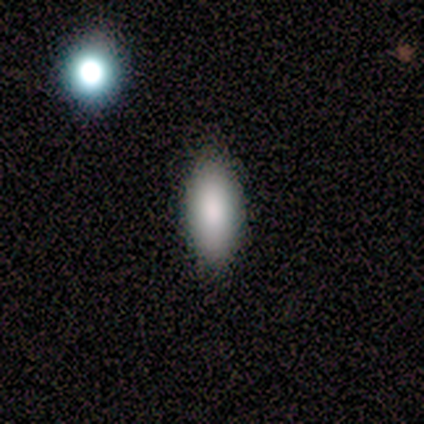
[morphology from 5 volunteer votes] smooth_or_featured: smooth (p=0.80) [alt: featured or disk p=0.20]
how_rounded: in between (p=0.75) [alt: cigar-shaped p=0.25]
merging: none (p=1.00)